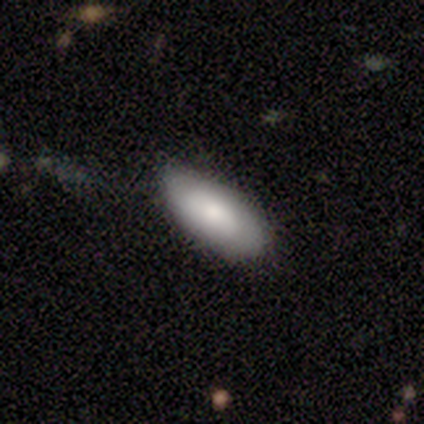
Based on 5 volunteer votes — Smooth or featured: smooth — 100%
How rounded: in between — 80% (cigar-shaped — 20%)
Merging: none — 80% (minor disturbance — 20%)